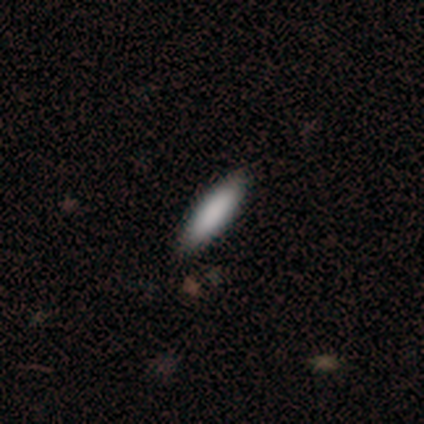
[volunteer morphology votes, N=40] Smooth or featured? 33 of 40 (82%) said smooth. How rounded? 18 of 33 (55%) said cigar-shaped. Merging? 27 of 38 (71%) said none.